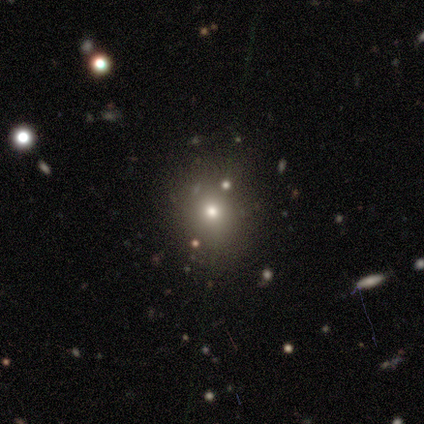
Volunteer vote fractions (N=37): This is possibly a smooth galaxy (59%). How rounded: clearly round (91%). Merging: clearly none (93%).